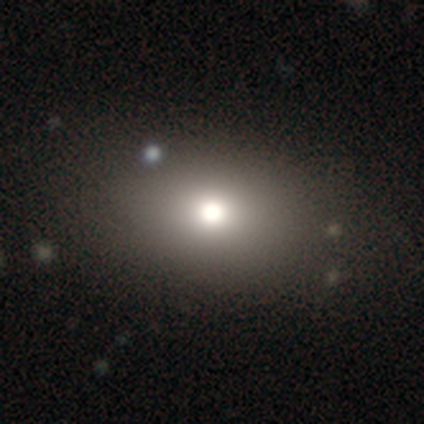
Morphology: type=smooth (80%); roundness=in between (62%); merging=none (86%).